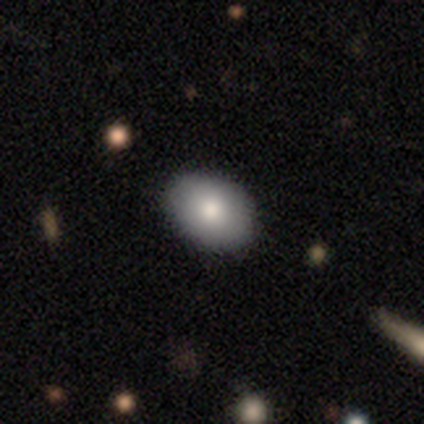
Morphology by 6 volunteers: Smooth or featured? smooth (83%)
How rounded? in between (80%)
Merging? none (50%, tied with minor disturbance)